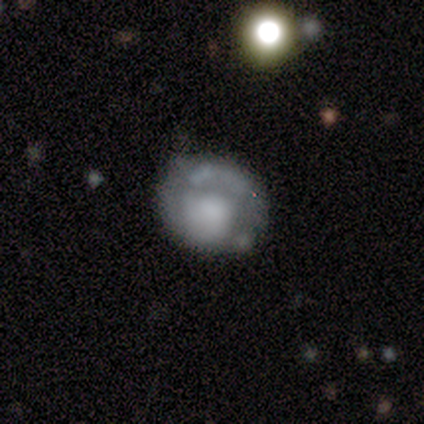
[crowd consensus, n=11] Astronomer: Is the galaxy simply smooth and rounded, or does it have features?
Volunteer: featured or disk — 73%.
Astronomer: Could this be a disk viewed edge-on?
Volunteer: no — 100%.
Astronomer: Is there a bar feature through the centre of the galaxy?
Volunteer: no — 75%.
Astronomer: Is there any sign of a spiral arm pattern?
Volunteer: yes — 62%.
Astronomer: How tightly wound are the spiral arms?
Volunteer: tight — 40%, tied with medium at 40%.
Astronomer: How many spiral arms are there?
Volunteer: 1 — 40%, tied with 2 at 40%.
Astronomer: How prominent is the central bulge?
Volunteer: large — 38% (runner-up: moderate, 25%).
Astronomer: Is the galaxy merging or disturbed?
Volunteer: none — 60%.